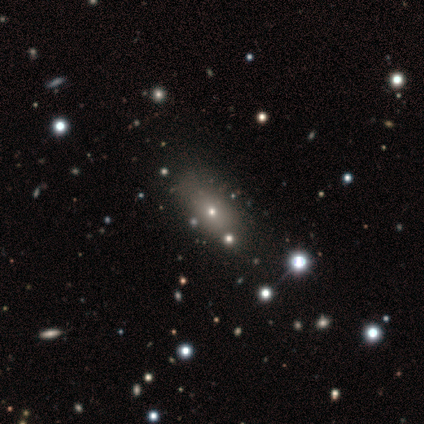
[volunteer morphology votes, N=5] smooth 40% (tied), featured or disk 40% (tied), star or artifact 20%. Down the decision tree: how rounded — in between (100%); merging — none (50%).